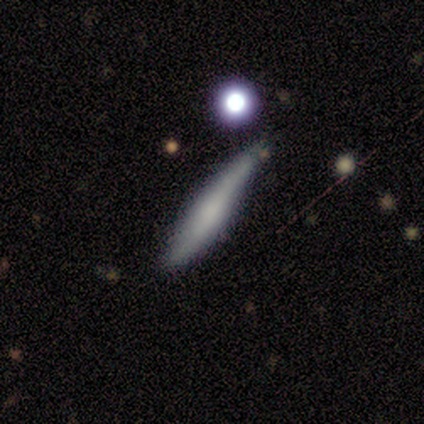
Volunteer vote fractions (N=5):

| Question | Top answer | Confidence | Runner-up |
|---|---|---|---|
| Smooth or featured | smooth | 60% | featured or disk (40%) |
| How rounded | cigar-shaped | 100% | — |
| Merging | none | 60% | minor disturbance (20%) |